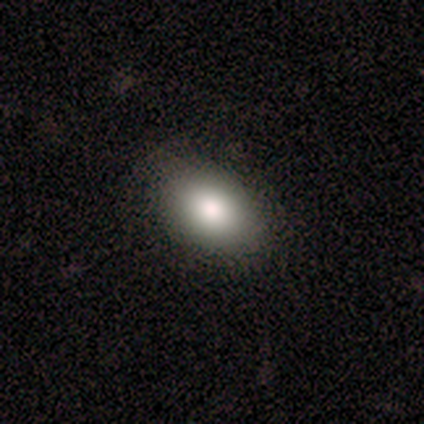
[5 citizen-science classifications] Overall: smooth (60%; featured or disk 20%). How rounded: in between (100%). Merging: none (100%).